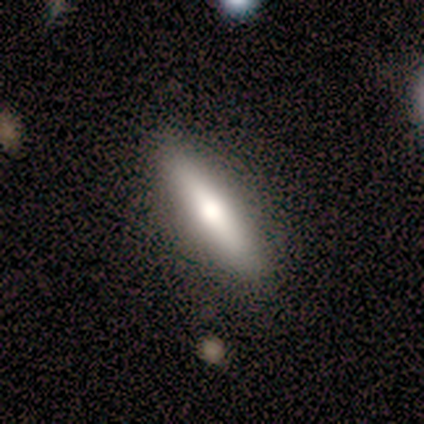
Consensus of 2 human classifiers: Smooth or featured? 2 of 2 (100%) said featured or disk. Edge-on disk? 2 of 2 (100%) said yes. Edge-on bulge? 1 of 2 (50%, tied with rounded) said none. Merging? 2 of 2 (100%) said none.